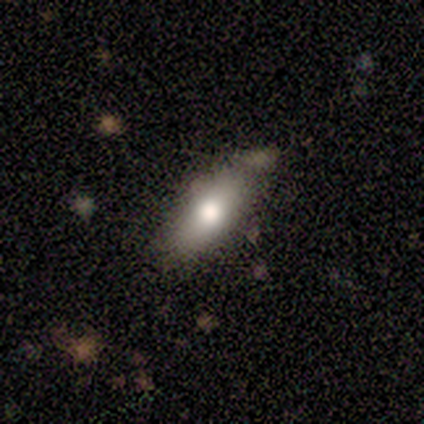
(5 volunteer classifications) Smooth or featured?
  - smooth: 60% *
  - featured or disk: 20%
  - star or artifact: 20%
How rounded?
  - in between: 100% *
  - round: 0%
  - cigar-shaped: 0%
Merging?
  - none: 100% *
  - minor disturbance: 0%
  - major disturbance: 0%
  - merger: 0%